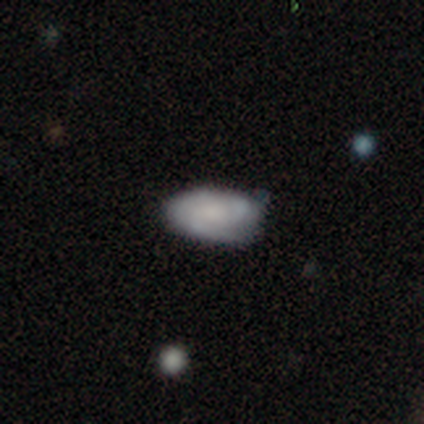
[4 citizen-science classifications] Smooth or featured? 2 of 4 (50%, tied with featured or disk) said smooth. How rounded? 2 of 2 (100%) said in between. Merging? 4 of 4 (100%) said none.